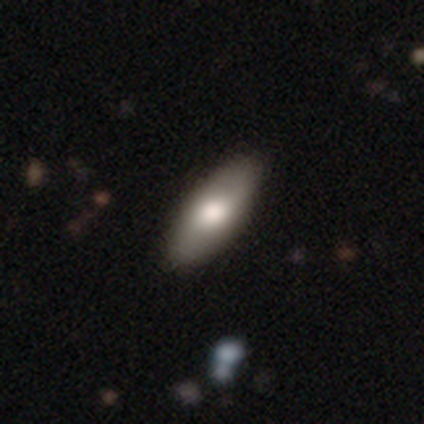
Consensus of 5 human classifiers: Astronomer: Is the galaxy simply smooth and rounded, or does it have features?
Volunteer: smooth — 80%.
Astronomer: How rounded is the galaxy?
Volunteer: in between — 100%.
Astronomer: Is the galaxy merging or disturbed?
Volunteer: none — 100%.